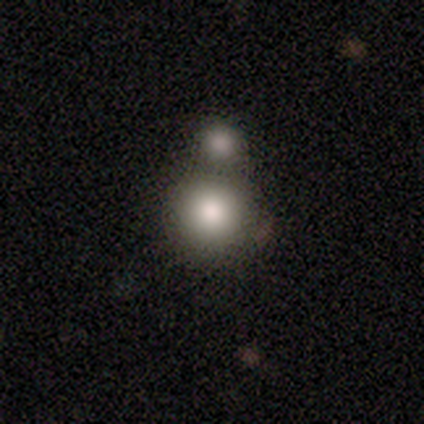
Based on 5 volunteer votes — Smooth or featured: smooth — 80% (featured or disk — 20%)
How rounded: round — 75% (in between — 25%)
Merging: merger — 80% (minor disturbance — 20%)